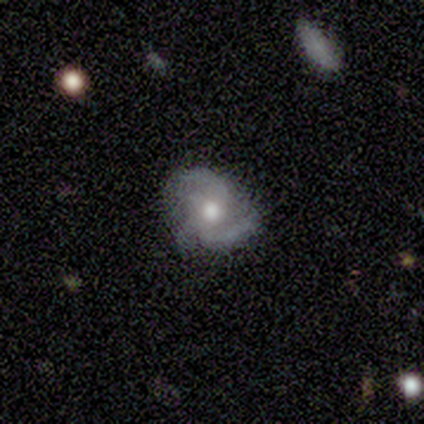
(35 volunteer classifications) Morphology: type=featured or disk (69%); edge-on=no (100%); bar=no (79%); spiral arms=yes (96%); winding=medium (57%); arm count=3 (43%); bulge=moderate (83%); merging=none (66%).